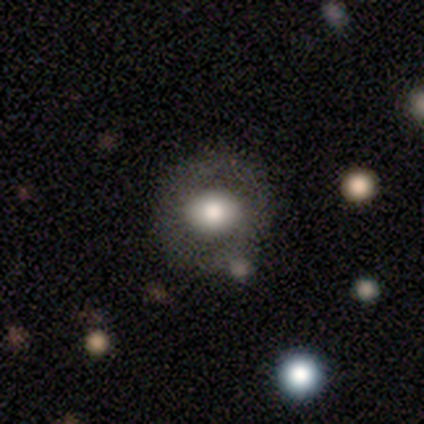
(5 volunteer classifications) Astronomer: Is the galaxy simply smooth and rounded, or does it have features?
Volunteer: smooth — 60% (runner-up: featured or disk, 40%).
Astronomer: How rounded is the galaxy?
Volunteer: round — 67%.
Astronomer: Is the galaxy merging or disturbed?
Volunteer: none — 100%.